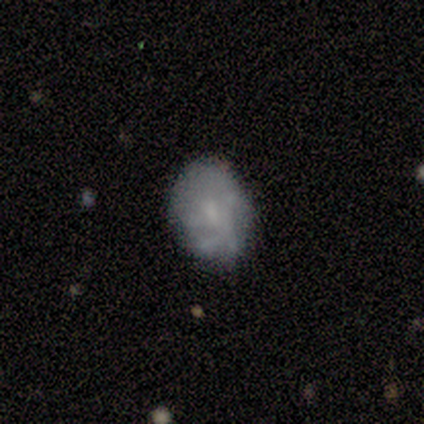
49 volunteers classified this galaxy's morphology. type=featured or disk (57%); edge-on=no (100%); bar=no (75%); spiral arms=yes (54%); winding=medium (47%); arm count=can't tell (80%); bulge=small (46%); merging=none (73%).